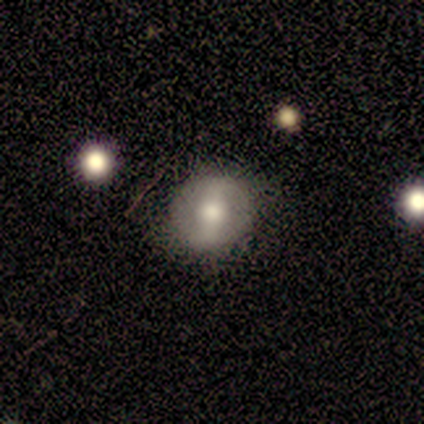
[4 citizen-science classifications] Smooth or featured? 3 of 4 (75%) said smooth. How rounded? 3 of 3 (100%) said round. Merging? 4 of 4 (100%) said none.